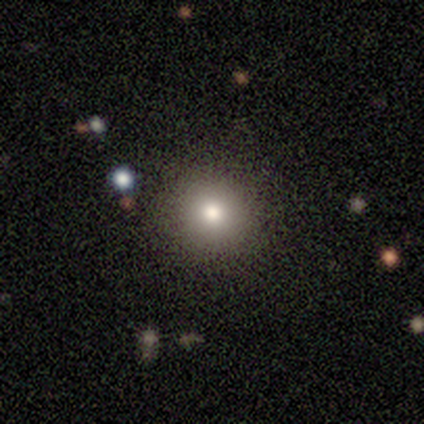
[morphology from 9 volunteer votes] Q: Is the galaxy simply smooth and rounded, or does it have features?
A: smooth — 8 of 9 (89%).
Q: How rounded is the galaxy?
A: round — 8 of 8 (100%).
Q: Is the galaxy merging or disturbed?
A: none — 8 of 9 (89%).